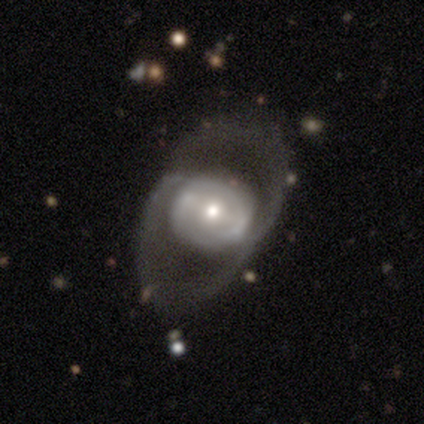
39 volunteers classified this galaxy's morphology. Smooth or featured?
  - featured or disk: 74% *
  - smooth: 18%
  - star or artifact: 8%
Edge-on disk?
  - no: 90% *
  - yes: 10%
Bar?
  - no: 58% *
  - weak: 31%
  - strong: 12%
Spiral arms?
  - no: 54% *
  - yes: 46%
Bulge size?
  - small: 46% *
  - moderate: 38%
  - large: 12%
  - dominant: 4%
  - none: 0%
Merging?
  - none: 58% *
  - major disturbance: 28%
  - minor disturbance: 14%
  - merger: 0%